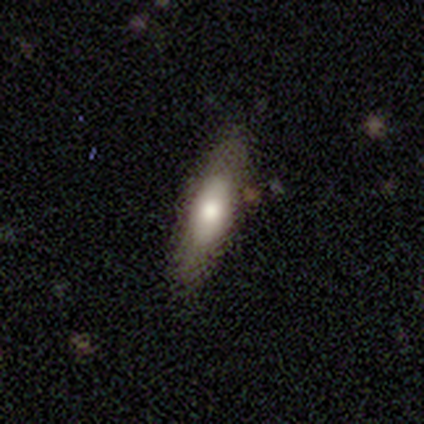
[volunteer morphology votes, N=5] Volunteers were most divided on "edge-on bulge" (2-way tie): boxy: 50%, rounded: 50%, none: 0%. More confident: merging — none (80%); edge-on disk — yes (67%); smooth or featured — featured or disk (60%).